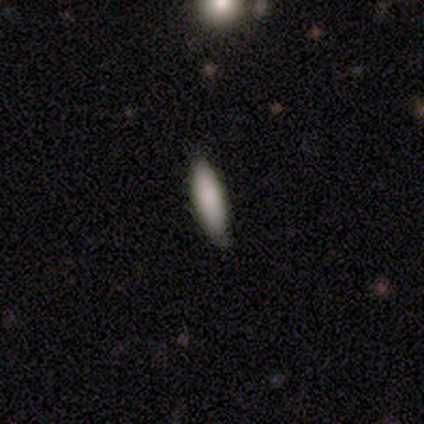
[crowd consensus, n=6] Volunteers were most divided on "how rounded": in between: 60%, cigar-shaped: 40%, round: 0%. More confident: smooth or featured — smooth (83%); merging — none (67%).